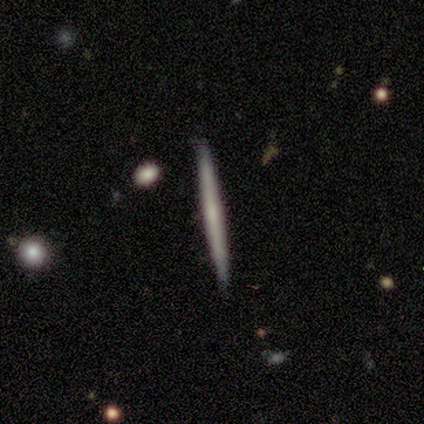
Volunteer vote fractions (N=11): Smooth or featured?
  - featured or disk: 73% *
  - smooth: 18%
  - star or artifact: 9%
Edge-on disk?
  - yes: 100% *
  - no: 0%
Edge-on bulge?
  - none: 75% *
  - rounded: 25%
  - boxy: 0%
Merging?
  - none: 90% *
  - major disturbance: 10%
  - minor disturbance: 0%
  - merger: 0%